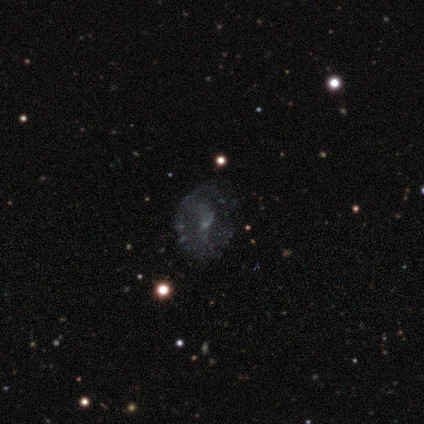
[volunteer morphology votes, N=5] smooth-or-featured: featured or disk: 60% | smooth: 20% | star or artifact: 20%
  disk-edge-on: no: 100% | yes: 0%
    bar: weak: 67% | strong: 33% | no: 0%
    has-spiral-arms: no: 67% | yes: 33%
    bulge-size: small: 67% | none: 33% | dominant: 0% | large: 0% | moderate: 0%
  merging: none: 50% | minor disturbance: 25% | major disturbance: 25% | merger: 0%